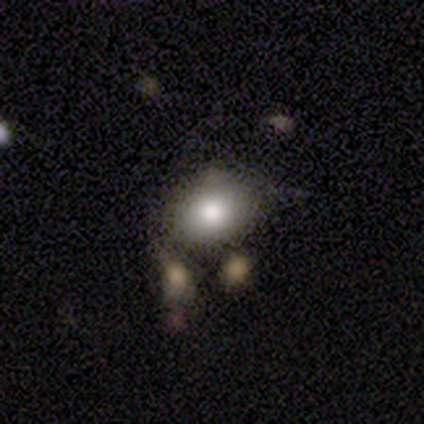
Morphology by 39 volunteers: Smooth or featured? 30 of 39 (77%) said smooth. How rounded? 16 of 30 (53%) said in between. Merging? 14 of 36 (39%) said none.